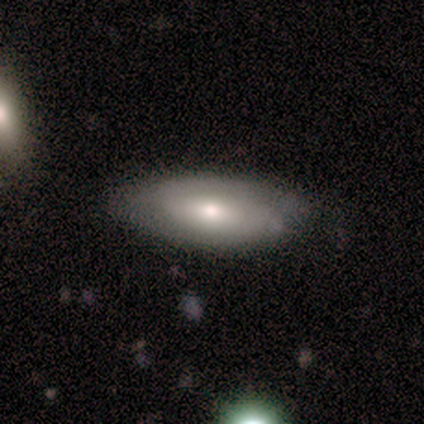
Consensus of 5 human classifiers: This is clearly a smooth galaxy (80%). How rounded: likely in between (75%). Merging: clearly none (80%).